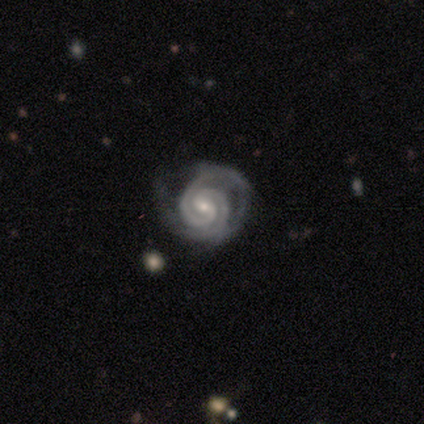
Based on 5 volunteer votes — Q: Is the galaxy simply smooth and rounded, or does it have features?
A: featured or disk — 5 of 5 (100%).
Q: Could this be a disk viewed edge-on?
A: no — 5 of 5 (100%).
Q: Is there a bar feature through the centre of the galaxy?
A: weak — 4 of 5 (80%).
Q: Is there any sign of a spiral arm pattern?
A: yes — 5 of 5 (100%).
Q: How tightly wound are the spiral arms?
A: tight — 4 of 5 (80%).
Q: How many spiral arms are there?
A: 2 — 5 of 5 (100%).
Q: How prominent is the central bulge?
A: small — 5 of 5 (100%).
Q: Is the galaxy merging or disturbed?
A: minor disturbance — 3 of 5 (60%).